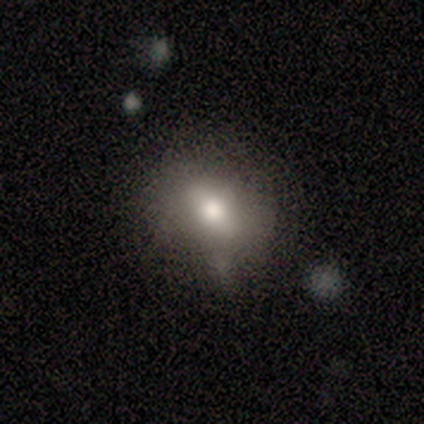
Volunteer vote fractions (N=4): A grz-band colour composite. It shows a smooth galaxy with no disk features (100%) that is in between round and cigar-shaped (75%). Merging: none (75%).